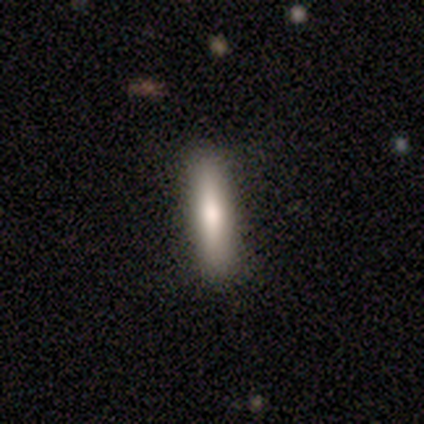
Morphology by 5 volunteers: A smooth galaxy with no disk features (80%) that is cigar-shaped (100%). Merging: none (100%).